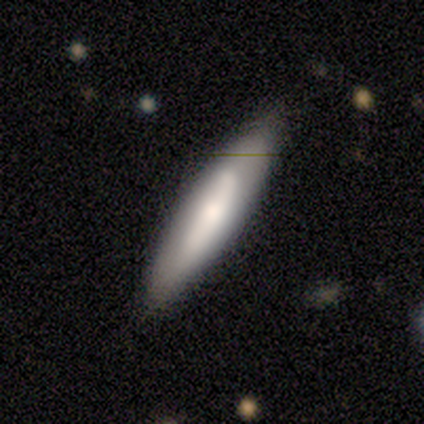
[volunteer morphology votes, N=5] featured or disk 80%, smooth 20%, star or artifact 0%. Down the decision tree: edge-on disk — yes (50%, tied with no); edge-on bulge — none (50%, tied with rounded); merging — none (60%).